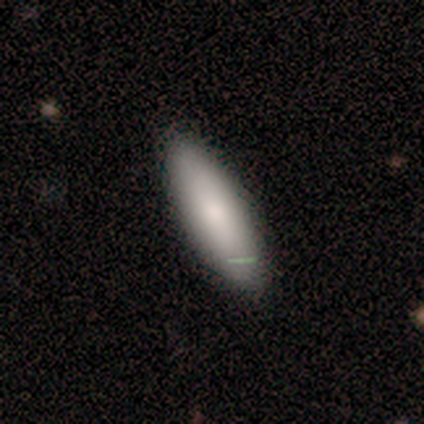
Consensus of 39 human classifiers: smooth_or_featured: smooth (p=0.85) [alt: featured or disk p=0.10]
how_rounded: cigar-shaped (p=0.61) [alt: in between p=0.39]
merging: none (p=0.89) [alt: minor disturbance p=0.11]